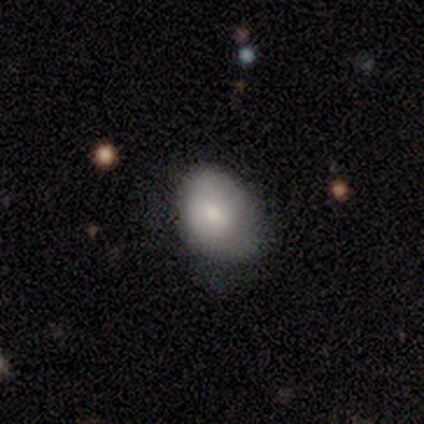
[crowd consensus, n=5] This is clearly a smooth galaxy (80%). How rounded: likely in between (75%). Merging: clearly minor disturbance (80%).